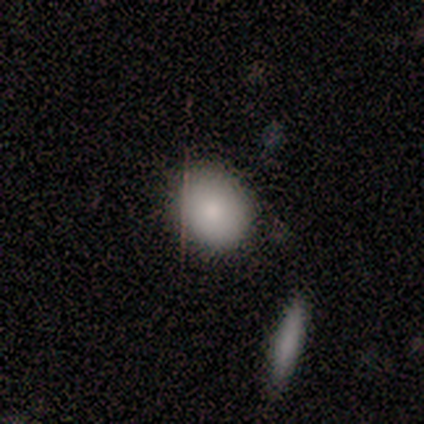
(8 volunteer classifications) Morphology: type=smooth (88%); roundness=round (57%); merging=none (86%).